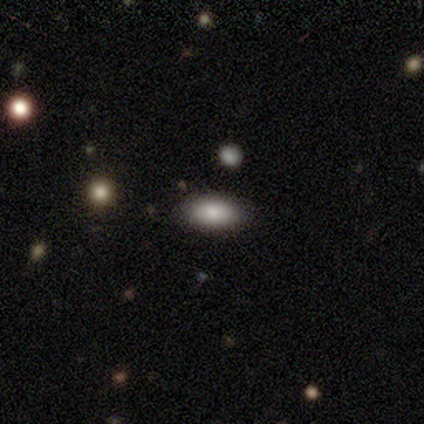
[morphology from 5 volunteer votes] smooth 80%, star or artifact 20%, featured or disk 0%. Down the decision tree: how rounded — in between (100%); merging — none (100%).